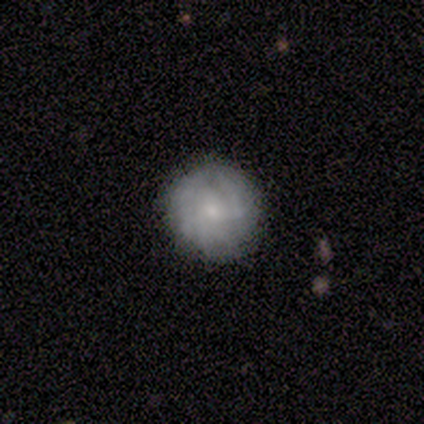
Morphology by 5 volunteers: Volunteers were most divided on "smooth or featured": featured or disk: 60%, smooth: 40%, star or artifact: 0%. More confident: edge-on disk — no (100%); spiral arms — yes (100%); spiral winding — tight (100%); merging — none (80%); bar — no (67%); spiral arm count — can't tell (67%); bulge size — moderate (67%).